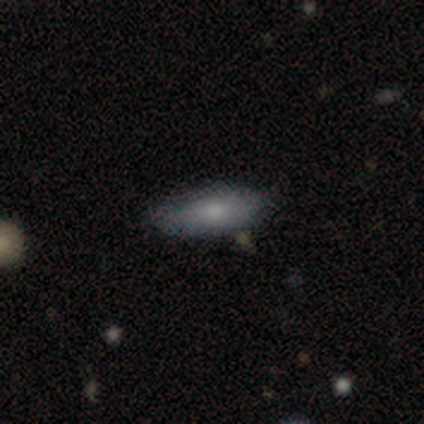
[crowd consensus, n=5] This is clearly a smooth galaxy (100%). How rounded: likely in between (60%). Merging: clearly none (80%).